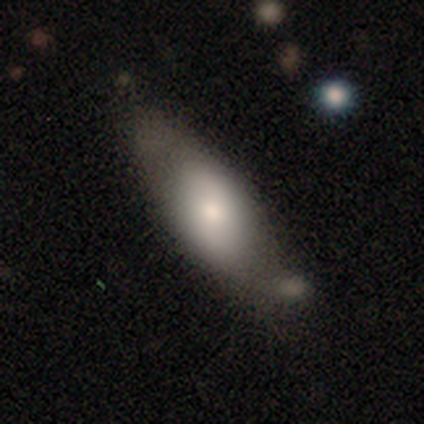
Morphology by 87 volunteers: smooth-or-featured: smooth: 62% | featured or disk: 28% | star or artifact: 10%
  how-rounded: in between: 81% | cigar-shaped: 17% | round: 2%
  merging: none: 50% | minor disturbance: 33% | merger: 12% | major disturbance: 5%